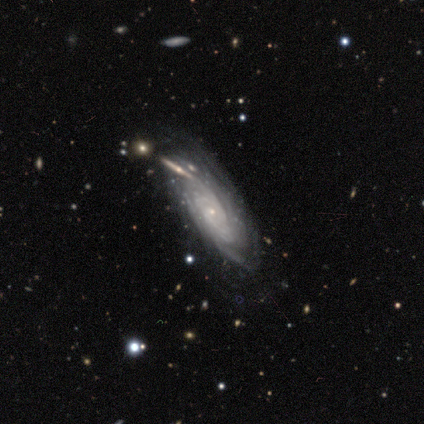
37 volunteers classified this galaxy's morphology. smooth_or_featured: featured or disk (p=0.95) [alt: smooth p=0.03]
disk_edge_on: no (p=0.91) [alt: yes p=0.09]
bar: no (p=0.81) [alt: weak p=0.16]
has_spiral_arms: yes (p=0.97) [alt: no p=0.03]
spiral_winding: tight (p=0.81) [alt: medium p=0.16]
spiral_arm_count: can't tell (p=0.61) [alt: 3 p=0.13]
bulge_size: small (p=0.91) [alt: none p=0.06]
merging: none (p=0.64) [alt: major disturbance p=0.14]